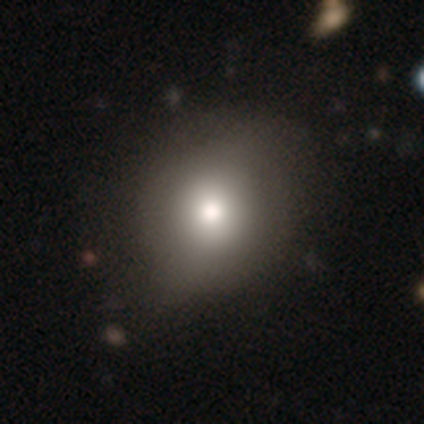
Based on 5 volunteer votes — smooth_or_featured: smooth (p=0.60) [alt: featured or disk p=0.40]
how_rounded: in between (p=0.67) [alt: round p=0.33]
merging: none (p=1.00)